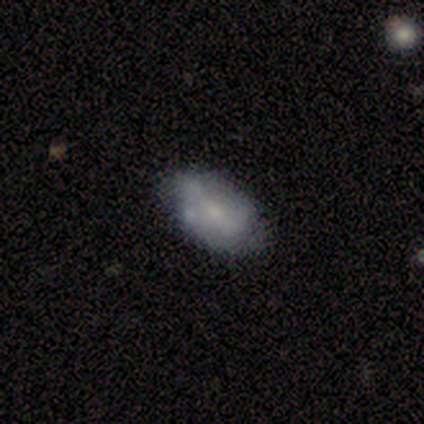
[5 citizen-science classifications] Smooth or featured?
  - smooth: 60% *
  - featured or disk: 40%
  - star or artifact: 0%
How rounded?
  - in between: 67% *
  - round: 33%
  - cigar-shaped: 0%
Merging?
  - none: 60% *
  - minor disturbance: 40%
  - major disturbance: 0%
  - merger: 0%